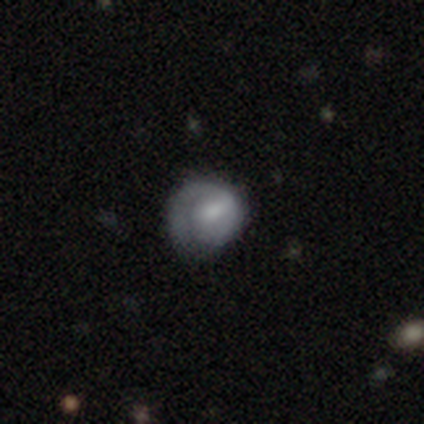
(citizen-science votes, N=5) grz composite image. It shows a featured or disk galaxy (80%) with a strong bar (33%, tied with weak and no), 1 (67%) tight (67%) spiral arms (100%) and a large central bulge (33%, tied with moderate and none). Merging: none (80%).